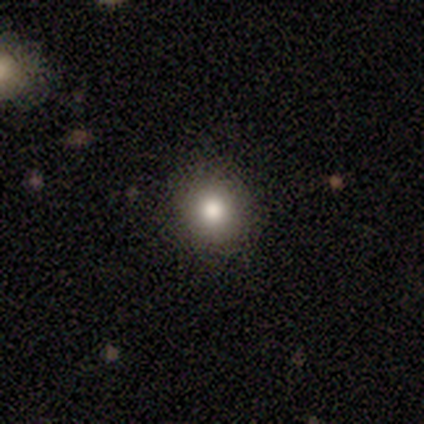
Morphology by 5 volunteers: Volunteers were most divided on "how rounded": round: 67%, in between: 33%, cigar-shaped: 0%. More confident: merging — none (75%); smooth or featured — smooth (60%).